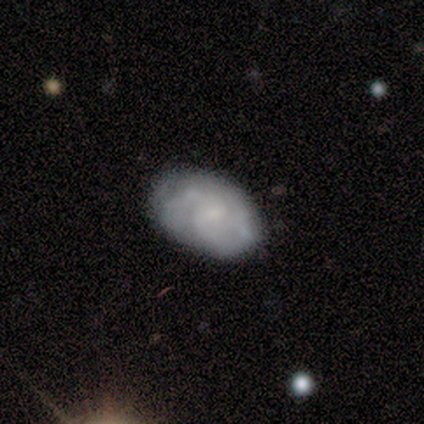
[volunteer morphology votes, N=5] Volunteers were most divided on "spiral arm count" (2-way tie): 3: 50%, can't tell: 50%, 1: 0%, 2: 0%, 4: 0%, more than 4: 0%. More confident: edge-on disk — no (100%); spiral winding — tight (100%); bar — no (67%); spiral arms — yes (67%); bulge size — small (67%); smooth or featured — featured or disk (60%); merging — none (60%).